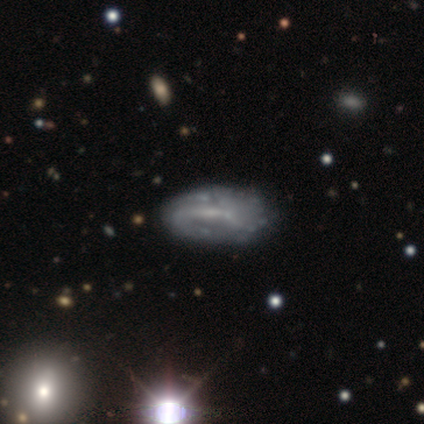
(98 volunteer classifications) featured or disk 66%, smooth 26%, star or artifact 8%. Down the decision tree: edge-on disk — no (92%); bar — weak (62%); spiral arms — yes (63%); spiral arm count — can't tell (45%); spiral winding — medium (34%, tied with loose); bulge size — none (42%); merging — none (57%).